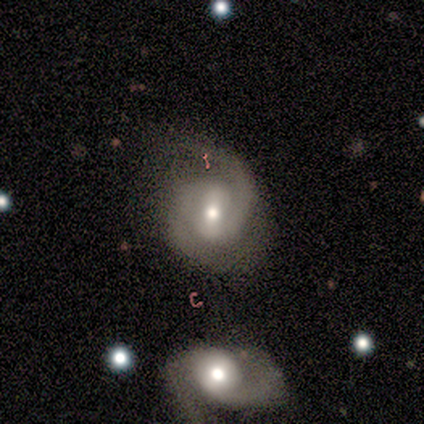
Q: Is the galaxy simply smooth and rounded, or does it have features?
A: featured or disk — 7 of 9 (78%).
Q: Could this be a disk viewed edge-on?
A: no — 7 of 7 (100%).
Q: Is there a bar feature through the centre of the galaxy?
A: weak — 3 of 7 (43%, tied with no).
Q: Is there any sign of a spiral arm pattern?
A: yes — 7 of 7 (100%).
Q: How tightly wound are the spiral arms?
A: tight — 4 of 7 (57%).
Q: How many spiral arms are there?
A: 2 — 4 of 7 (57%).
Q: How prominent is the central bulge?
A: moderate — 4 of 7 (57%).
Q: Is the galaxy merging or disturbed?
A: none — 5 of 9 (56%).